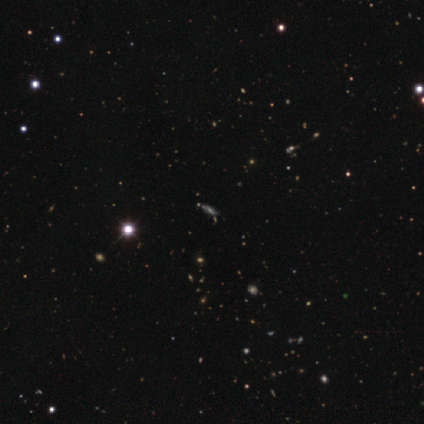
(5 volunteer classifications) Overall: smooth (40%, tied with star or artifact). How rounded: in between (50%, tied with cigar-shaped). Merging: none (67%; minor disturbance 33%).